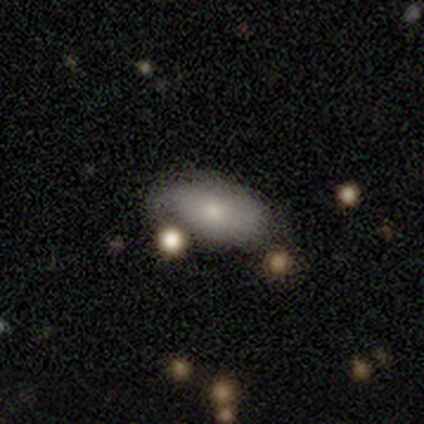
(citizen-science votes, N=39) smooth_or_featured: smooth (p=0.72) [alt: featured or disk p=0.23]
how_rounded: in between (p=0.82) [alt: round p=0.11]
merging: none (p=0.54) [alt: minor disturbance p=0.32]